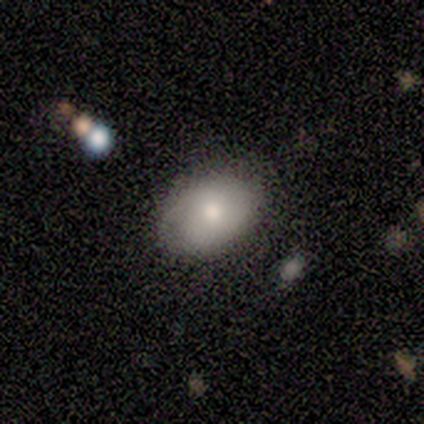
A smooth galaxy with no disk features (80%) that is in between round and cigar-shaped (75%).

Vote fractions:
- Smooth or featured? smooth: 80% / featured or disk: 20% / star or artifact: 0%
- How rounded? in between: 75% / round: 25% / cigar-shaped: 0%
- Merging? none: 100% / minor disturbance: 0% / major disturbance: 0% / merger: 0%